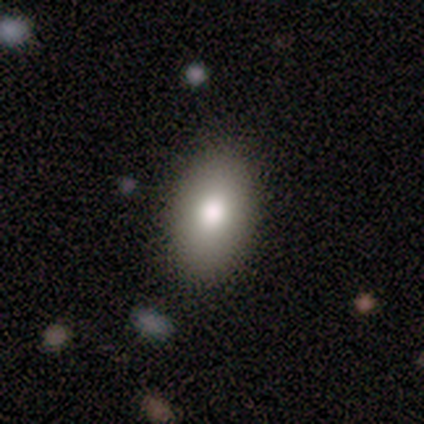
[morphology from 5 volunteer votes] Volunteers were most divided on "how rounded": round: 67%, in between: 33%, cigar-shaped: 0%. More confident: merging — none (75%); smooth or featured — smooth (60%).